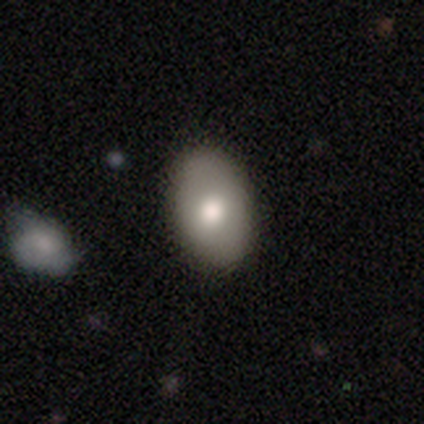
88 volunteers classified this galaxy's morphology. Overall: smooth (81%). How rounded: in between (93%). Merging: none (86%).